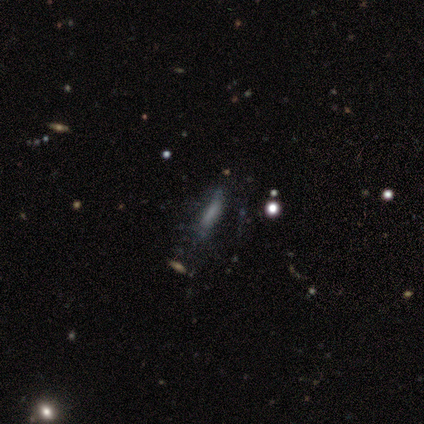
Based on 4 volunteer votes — smooth 50%, featured or disk 25%, star or artifact 25%. Down the decision tree: how rounded — cigar-shaped (100%); merging — none (67%).